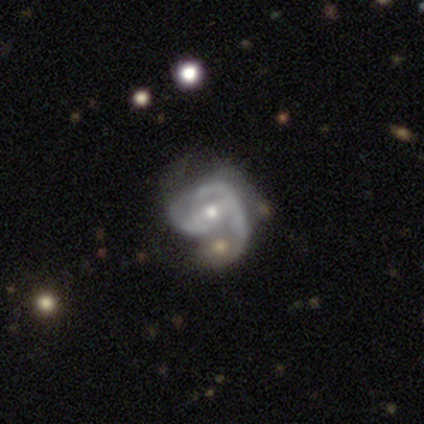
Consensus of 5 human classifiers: Q: Smooth or featured?
A: featured or disk (100%)
Q: Edge-on disk?
A: no (100%)
Q: Bar?
A: weak (40%); tied with: no (40%)
Q: Spiral arms?
A: yes (100%)
Q: Spiral winding?
A: tight (40%); tied with: medium (40%)
Q: Spiral arm count?
A: 2 (40%); tied with: can't tell (40%)
Q: Bulge size?
A: small (80%); runner-up: moderate (20%)
Q: Merging?
A: none (60%); runner-up: major disturbance (40%)